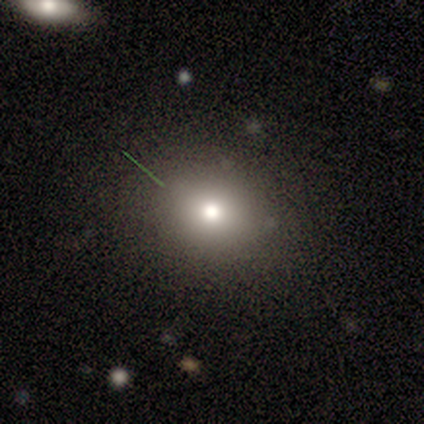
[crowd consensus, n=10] This appears to be a smooth galaxy with no disk features (80%) that is round (100%). Merging: none (62%).